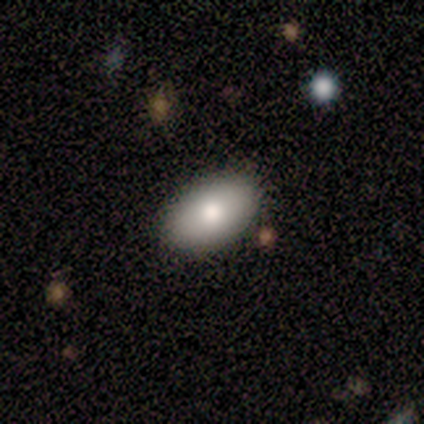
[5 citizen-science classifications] Smooth or featured?
  - smooth: 80% *
  - featured or disk: 20%
  - star or artifact: 0%
How rounded?
  - in between: 100% *
  - round: 0%
  - cigar-shaped: 0%
Merging?
  - none: 100% *
  - minor disturbance: 0%
  - major disturbance: 0%
  - merger: 0%